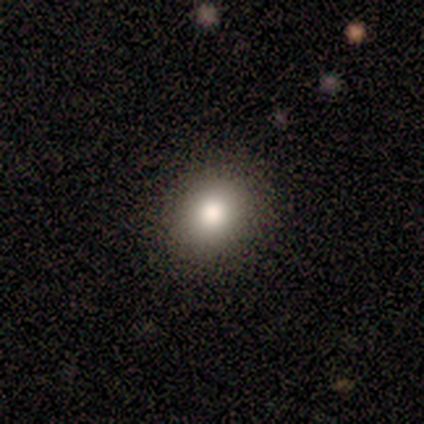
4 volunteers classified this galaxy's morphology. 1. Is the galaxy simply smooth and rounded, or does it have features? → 75% smooth, 25% featured or disk, 0% star or artifact.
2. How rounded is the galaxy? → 100% round, 0% in between, 0% cigar-shaped.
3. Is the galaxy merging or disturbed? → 100% none, 0% minor disturbance, 0% major disturbance, 0% merger.